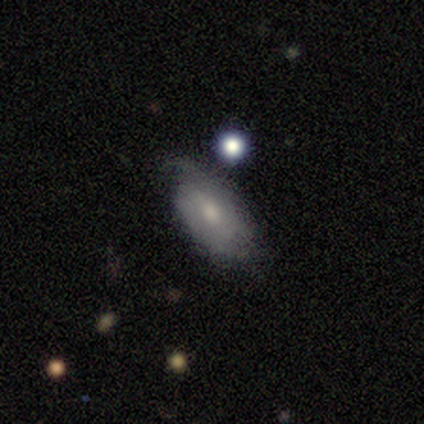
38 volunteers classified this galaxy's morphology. Smooth or featured?
  - featured or disk: 58% *
  - smooth: 37%
  - star or artifact: 5%
Edge-on disk?
  - no: 91% *
  - yes: 9%
Bar?
  - weak: 55% *
  - no: 45%
  - strong: 0%
Spiral arms?
  - yes: 85% *
  - no: 15%
Spiral winding?
  - medium: 53% *
  - tight: 41%
  - loose: 6%
Spiral arm count?
  - 2: 59% *
  - 1: 18%
  - can't tell: 18%
  - 3: 6%
  - 4: 0%
  - more than 4: 0%
Bulge size?
  - moderate: 50% *
  - small: 45%
  - none: 5%
  - dominant: 0%
  - large: 0%
Merging?
  - none: 64% *
  - minor disturbance: 19%
  - major disturbance: 17%
  - merger: 0%